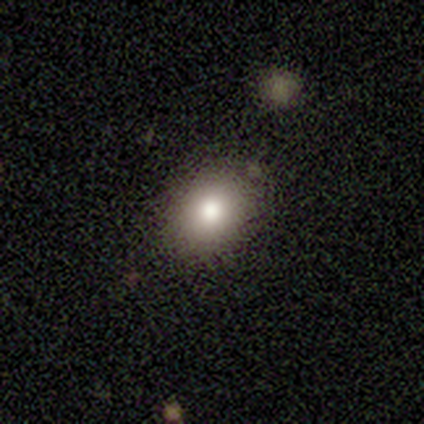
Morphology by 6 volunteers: Overall: smooth (67%; featured or disk 33%). How rounded: round (50%, tied with in between). Merging: none (83%).